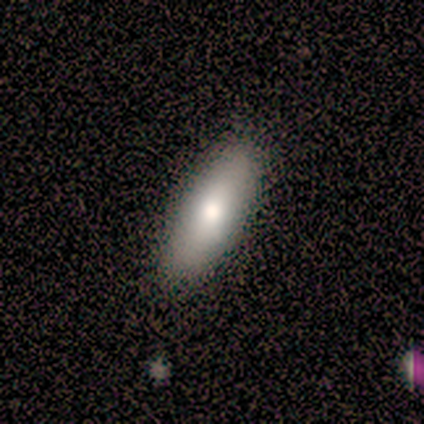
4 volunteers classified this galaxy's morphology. smooth_or_featured: smooth (p=0.50) [tied with: featured or disk p=0.50]
how_rounded: in between (p=0.50) [tied with: cigar-shaped p=0.50]
merging: none (p=0.75) [alt: minor disturbance p=0.25]